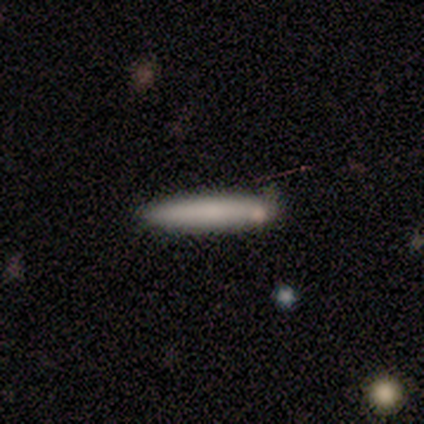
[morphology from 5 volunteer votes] Volunteers were most divided on "merging": none: 50%, minor disturbance: 25%, merger: 25%, major disturbance: 0%. More confident: how rounded — cigar-shaped (100%); smooth or featured — smooth (60%).